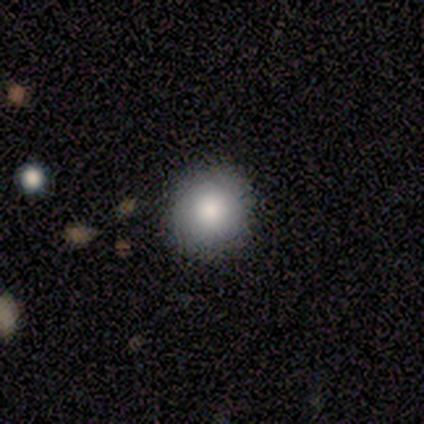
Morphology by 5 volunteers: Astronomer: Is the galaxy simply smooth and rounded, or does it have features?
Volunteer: smooth — 100%.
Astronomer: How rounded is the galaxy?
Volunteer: round — 100%.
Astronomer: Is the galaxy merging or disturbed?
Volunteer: none — 80%.